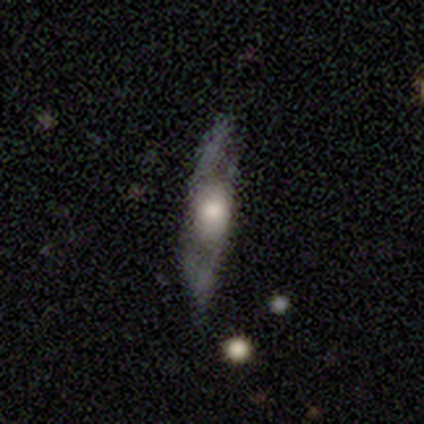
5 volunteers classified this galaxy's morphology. Volunteers were most divided on "merging": minor disturbance: 60%, none: 20%, major disturbance: 20%, merger: 0%. More confident: edge-on bulge — rounded (100%); smooth or featured — featured or disk (80%); edge-on disk — yes (75%).